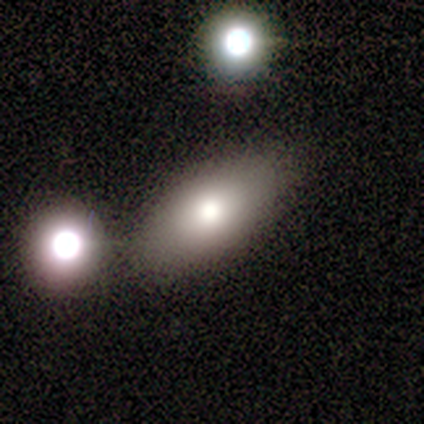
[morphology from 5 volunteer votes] A smooth galaxy with no disk features (80%) that is in between round and cigar-shaped (100%). Merging: none (80%).